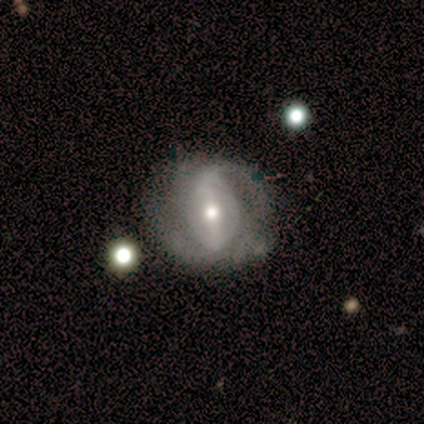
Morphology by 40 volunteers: A featured or disk galaxy (70%) with a strong bar (50%), 2 (81%) medium (38%) spiral arms (81%) and a moderate central bulge (73%). Merging: none (53%).